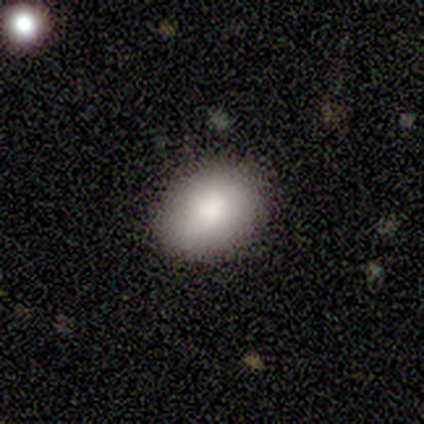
smooth_or_featured: smooth (p=1.00)
how_rounded: in between (p=1.00)
merging: none (p=0.80) [alt: minor disturbance p=0.20]